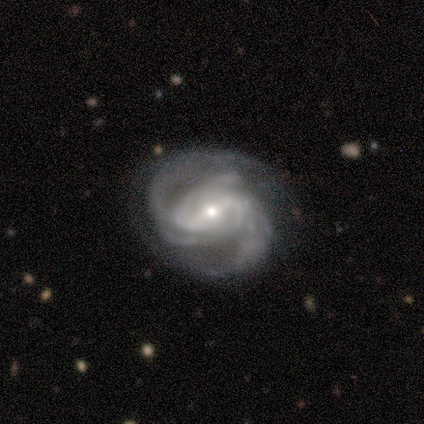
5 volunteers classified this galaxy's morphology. Smooth or featured: featured or disk — 100%
Edge-on disk: no — 100%
Bar: weak — 80% (strong — 20%)
Spiral arms: yes — 100%
Spiral winding: medium — 60% (tight — 40%)
Spiral arm count: 2 — 60% (4 — 20%)
Bulge size: small — 60% (moderate — 40%)
Merging: none — 40% (tied with minor disturbance — 40%)